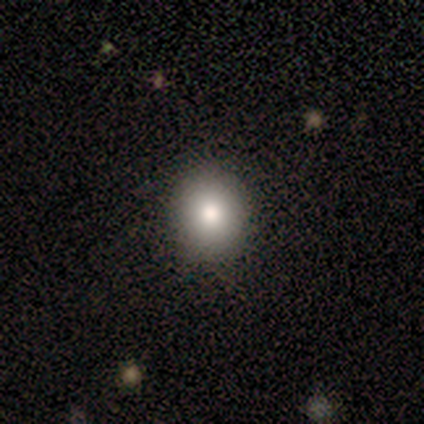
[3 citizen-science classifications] Smooth or featured: smooth — 100%
How rounded: in between — 67% (round — 33%)
Merging: none — 67% (minor disturbance — 33%)